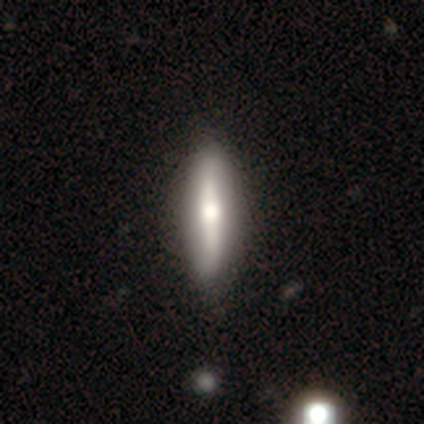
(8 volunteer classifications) smooth_or_featured: featured or disk (p=0.50) [alt: smooth p=0.38]
disk_edge_on: no (p=0.75) [alt: yes p=0.25]
bar: strong (p=0.67) [alt: no p=0.33]
has_spiral_arms: no (p=1.00)
bulge_size: large (p=0.33) [tied with: moderate p=0.33, small p=0.33]
merging: none (p=1.00)